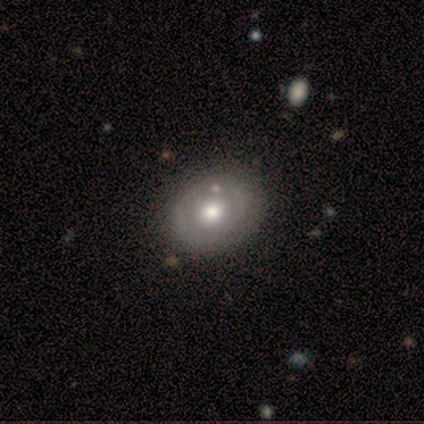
A featured or disk galaxy (80%) with no bar (100%), no spiral arms (100%) and a moderate central bulge (67%). Merging: none (80%).